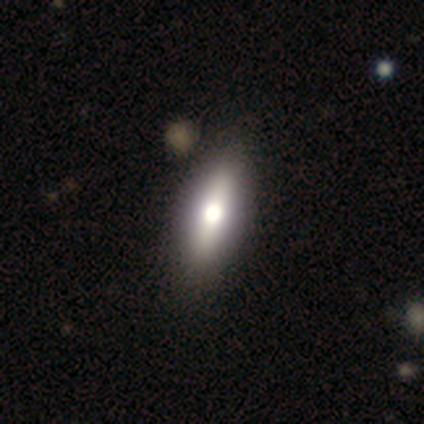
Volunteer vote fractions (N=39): Smooth or featured?
  - smooth: 59% *
  - featured or disk: 41%
  - star or artifact: 0%
How rounded?
  - in between: 61% *
  - cigar-shaped: 30%
  - round: 9%
Merging?
  - none: 62% *
  - minor disturbance: 5%
  - major disturbance: 5%
  - merger: 5%